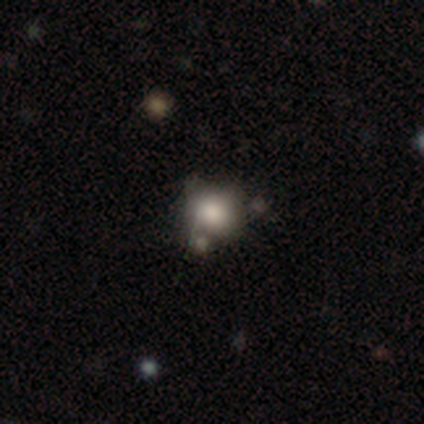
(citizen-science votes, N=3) Smooth or featured? 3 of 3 (100%) said smooth. How rounded? 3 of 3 (100%) said round. Merging? 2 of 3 (67%) said none.